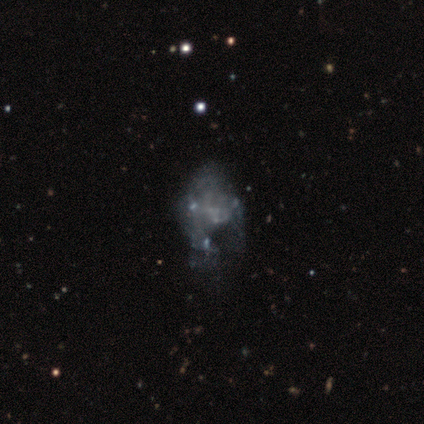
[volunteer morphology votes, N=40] This is clearly a featured or disk galaxy (82%). It is clearly not viewed edge-on (100%). Bar: clearly no (94%). Spiral arm pattern: clearly no (91%). Central bulge: clearly none (85%). Merging: marginally major disturbance (44%).